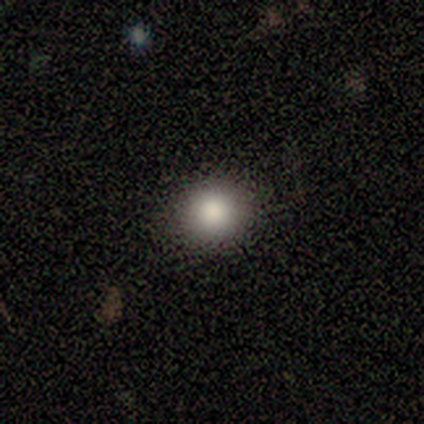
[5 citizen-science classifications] This is clearly a smooth galaxy (80%). How rounded: likely round (75%). Merging: likely none (75%).